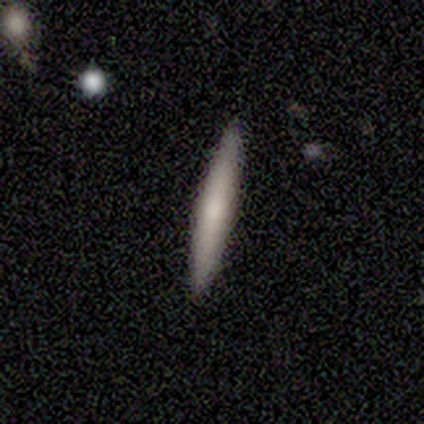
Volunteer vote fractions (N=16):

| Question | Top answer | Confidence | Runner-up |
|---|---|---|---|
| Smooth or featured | smooth | 56% | featured or disk (38%) |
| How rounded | cigar-shaped | 100% | — |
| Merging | none | 100% | — |